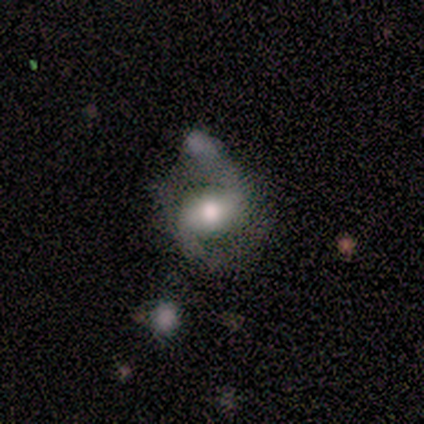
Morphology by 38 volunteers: Smooth or featured: featured or disk — 89% (smooth — 11%)
Edge-on disk: no — 88% (yes — 12%)
Bar: weak — 43% (strong — 37%)
Spiral arms: yes — 90% (no — 10%)
Spiral winding: loose — 56% (medium — 26%)
Spiral arm count: 2 — 85% (1 — 7%)
Bulge size: moderate — 63% (small — 20%)
Merging: none — 45% (minor disturbance — 21%)